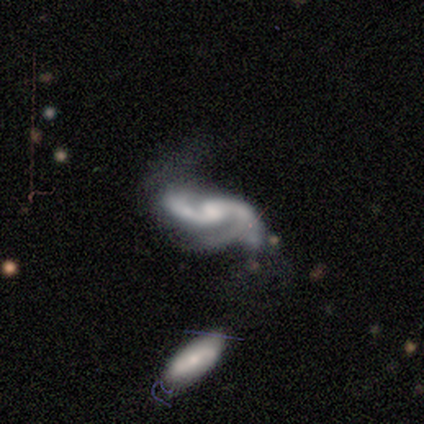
Smooth or featured? featured or disk (100%)
Edge-on disk? no (100%)
Bar? weak (60%)
Spiral arms? yes (80%)
Spiral winding? medium (50%)
Spiral arm count? 2 (50%, tied with 3)
Bulge size? small (60%)
Merging? minor disturbance (60%)